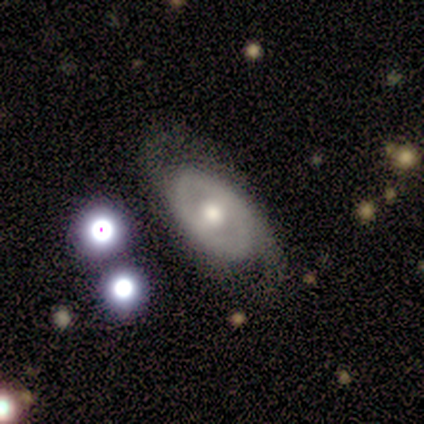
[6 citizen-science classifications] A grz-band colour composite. It shows a featured or disk galaxy (83%) with no bar (60%), no spiral arms (60%) and a moderate central bulge (60%). Merging: none (60%).